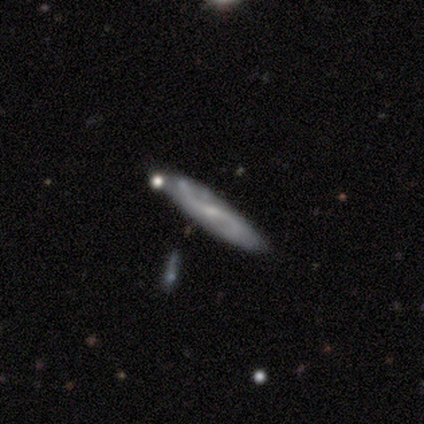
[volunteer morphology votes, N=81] This appears to be a featured or disk galaxy (67%) with a weak bar (58%), 2 (94%) loose (53%) spiral arms (89%) and a small central bulge (63%). Merging: none (70%).